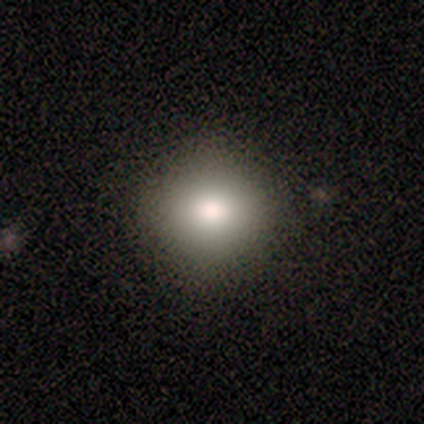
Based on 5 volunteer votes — A smooth galaxy with no disk features (80%) that is round (75%). Merging: none (100%).